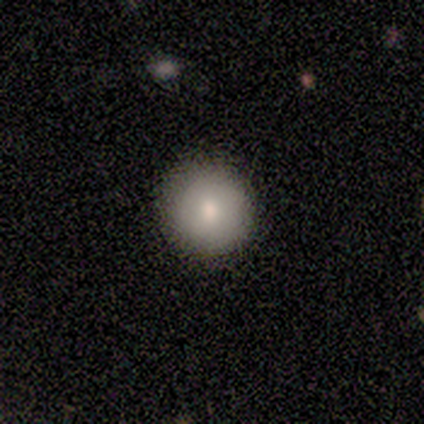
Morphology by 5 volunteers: This is clearly a smooth galaxy (80%). How rounded: clearly round (100%). Merging: clearly none (100%).